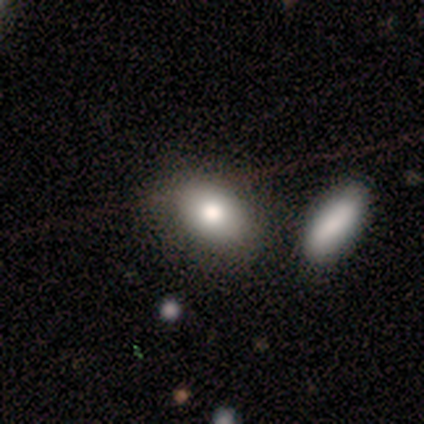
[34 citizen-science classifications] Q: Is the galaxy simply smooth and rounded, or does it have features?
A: smooth — 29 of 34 (85%).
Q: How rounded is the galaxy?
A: in between — 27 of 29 (93%).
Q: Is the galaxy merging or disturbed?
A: merger — 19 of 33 (58%).